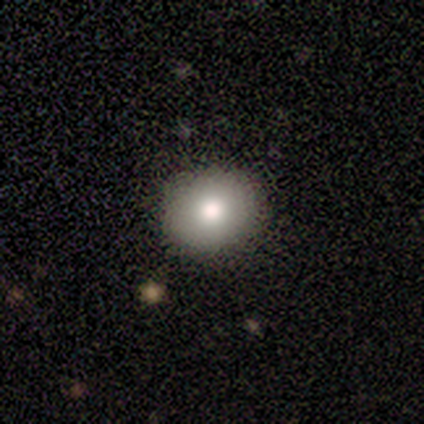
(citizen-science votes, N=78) Smooth or featured? 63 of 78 (81%) said smooth. How rounded? 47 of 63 (75%) said round. Merging? 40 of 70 (57%) said none.